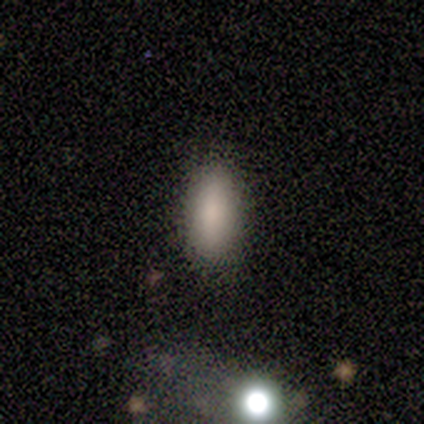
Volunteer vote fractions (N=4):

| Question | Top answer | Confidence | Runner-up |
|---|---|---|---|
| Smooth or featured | smooth | 100% | — |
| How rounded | in between | 75% | cigar-shaped (25%) |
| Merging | none | 100% | — |